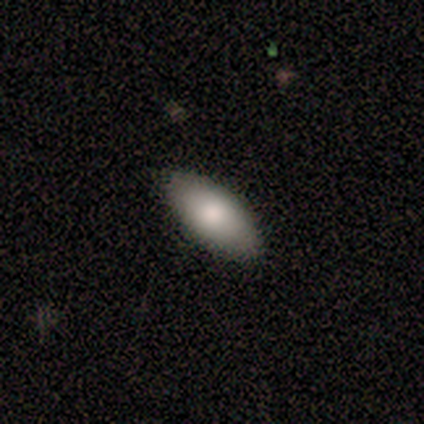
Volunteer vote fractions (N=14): smooth_or_featured: smooth (p=0.79) [alt: featured or disk p=0.14]
how_rounded: in between (p=0.73) [alt: cigar-shaped p=0.27]
merging: none (p=0.92) [alt: minor disturbance p=0.08]